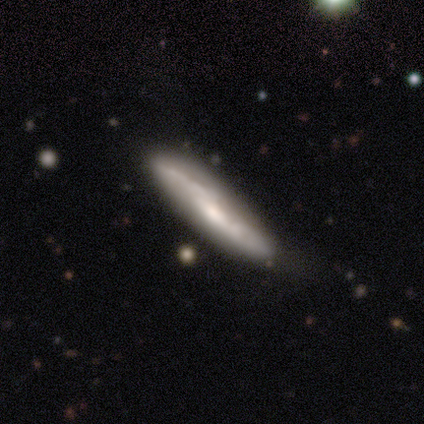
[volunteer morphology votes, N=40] smooth-or-featured: featured or disk: 85% | smooth: 10% | star or artifact: 5%
  disk-edge-on: yes: 50% (tied) | no: 50% (tied)
    edge-on-bulge: rounded: 47% | none: 41% | boxy: 12%
  merging: none: 53% | minor disturbance: 16% | merger: 8% | major disturbance: 3%